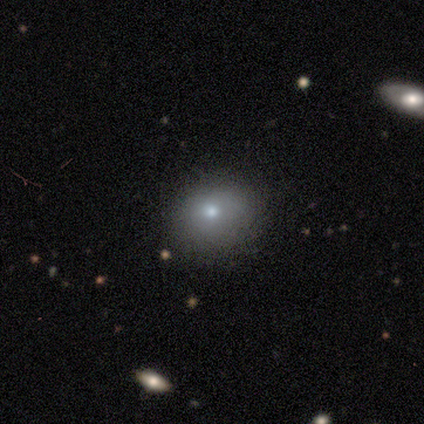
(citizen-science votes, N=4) Volunteers were most divided on "how rounded" (2-way tie): round: 50%, in between: 50%, cigar-shaped: 0%. More confident: smooth or featured — smooth (100%); merging — none (75%).